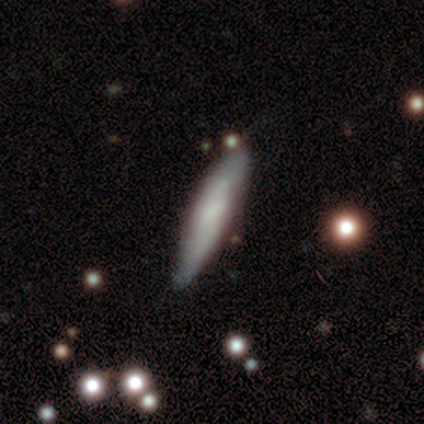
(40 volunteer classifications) A smooth galaxy with no disk features (52%) that is cigar-shaped (90%).

Vote fractions:
- Smooth or featured? smooth: 52% / featured or disk: 45% / star or artifact: 2%
- How rounded? cigar-shaped: 90% / round: 5% / in between: 5%
- Merging? none: 67% / minor disturbance: 26% / merger: 5% / major disturbance: 3%